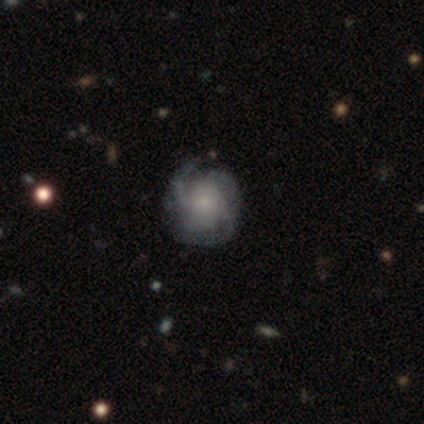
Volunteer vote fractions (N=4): This appears to be a featured or disk galaxy (75%) with no bar (100%), 3 (67%) medium (67%) spiral arms (100%) and a small central bulge (100%). Merging: minor disturbance (100%).